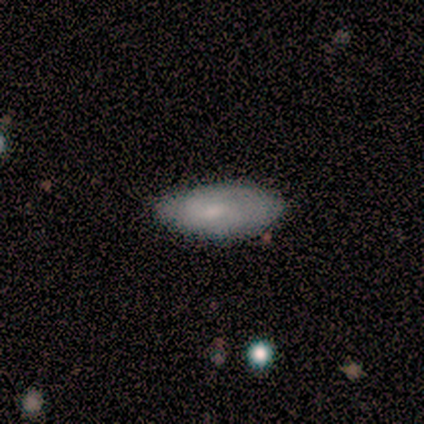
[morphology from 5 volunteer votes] A smooth galaxy with no disk features (80%) that is in between round and cigar-shaped (100%). Merging: none (80%).